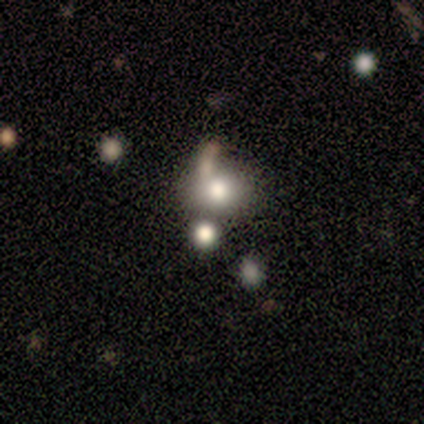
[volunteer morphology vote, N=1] smooth_or_featured: smooth (p=1.00)
how_rounded: in between (p=1.00)
merging: none (p=1.00)